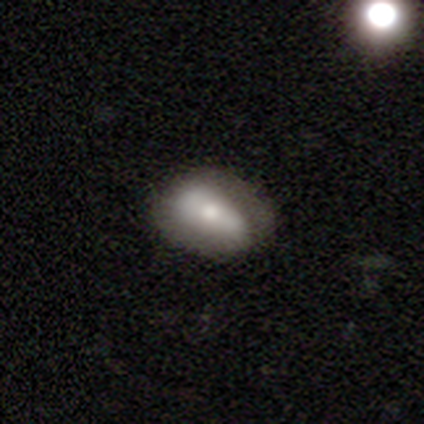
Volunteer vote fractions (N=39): Volunteers were most divided on "smooth or featured": smooth: 54%, featured or disk: 41%, star or artifact: 5%. More confident: how rounded — in between (86%); merging — none (54%).